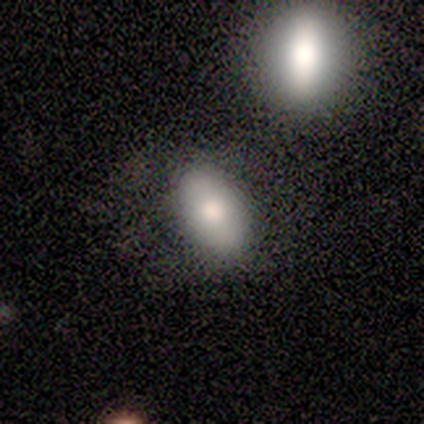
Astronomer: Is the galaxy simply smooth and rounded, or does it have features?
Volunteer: smooth — 40%, tied with featured or disk at 40%.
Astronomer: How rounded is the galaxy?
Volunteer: in between — 100%.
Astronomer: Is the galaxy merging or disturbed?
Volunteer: none — 75%.